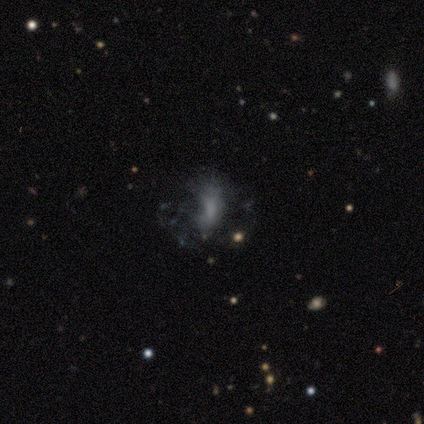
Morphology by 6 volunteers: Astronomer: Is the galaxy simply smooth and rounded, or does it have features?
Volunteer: featured or disk — 83%.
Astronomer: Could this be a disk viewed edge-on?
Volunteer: no — 100%.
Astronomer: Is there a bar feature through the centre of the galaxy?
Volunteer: no — 80%.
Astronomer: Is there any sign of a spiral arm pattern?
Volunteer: no — 60% (runner-up: yes, 40%).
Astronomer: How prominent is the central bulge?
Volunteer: moderate — 40% (runner-up: large, 20%).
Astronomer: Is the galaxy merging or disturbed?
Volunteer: minor disturbance — 60%.